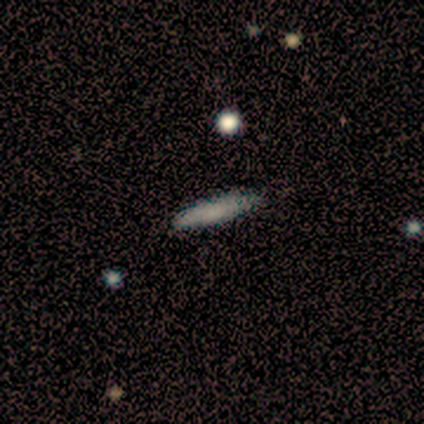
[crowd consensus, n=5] Smooth or featured?
  - smooth: 60% *
  - featured or disk: 20%
  - star or artifact: 20%
How rounded?
  - cigar-shaped: 67% *
  - in between: 33%
  - round: 0%
Merging?
  - none: 100% *
  - minor disturbance: 0%
  - major disturbance: 0%
  - merger: 0%